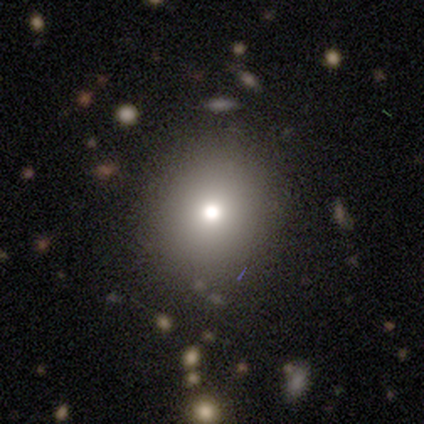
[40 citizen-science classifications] Volunteers were most divided on "smooth or featured": smooth: 55%, featured or disk: 22%, star or artifact: 22%. More confident: merging — none (81%); how rounded — round (77%).